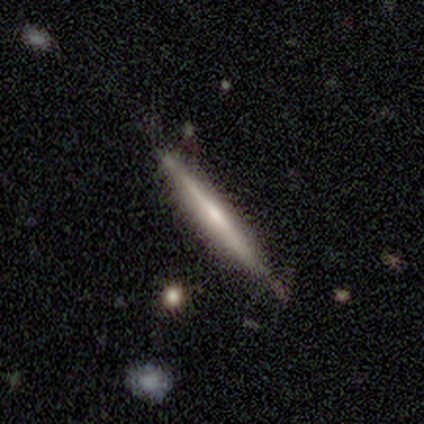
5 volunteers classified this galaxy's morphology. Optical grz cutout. It shows a featured or disk galaxy (80%) viewed edge-on (100%) with no central bulge (50%, tied with rounded). Merging: none (60%).